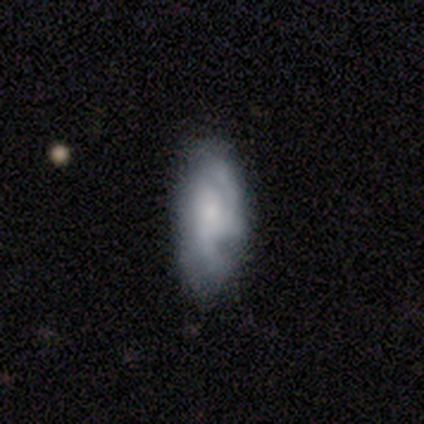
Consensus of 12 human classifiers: A smooth galaxy with no disk features (42%, tied with featured or disk) that is in between round and cigar-shaped (80%).

Vote fractions:
- Smooth or featured? smooth: 42% (tied) / featured or disk: 42% (tied) / star or artifact: 17%
- How rounded? in between: 80% / cigar-shaped: 20% / round: 0%
- Merging? none: 70% / minor disturbance: 20% / major disturbance: 10% / merger: 0%